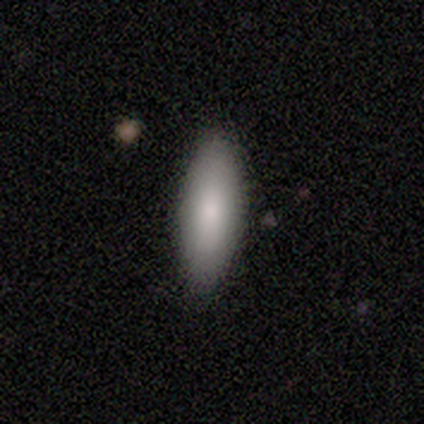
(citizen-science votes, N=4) A smooth galaxy with no disk features (100%) that is in between round and cigar-shaped (75%). Merging: none (75%).